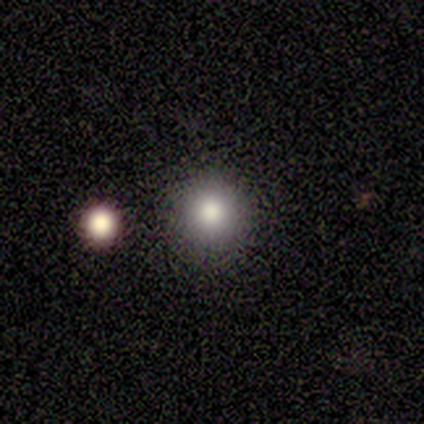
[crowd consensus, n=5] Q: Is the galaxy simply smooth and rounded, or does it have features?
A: smooth — 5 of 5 (100%).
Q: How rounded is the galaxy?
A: round — 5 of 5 (100%).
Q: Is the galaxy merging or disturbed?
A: none — 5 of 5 (100%).